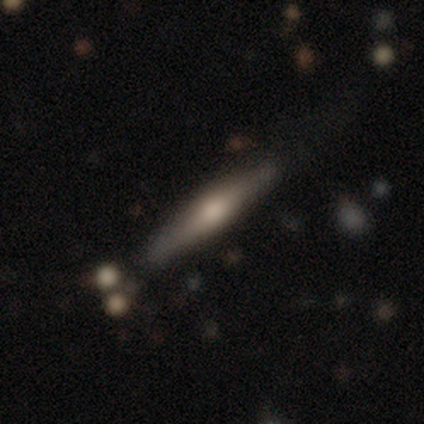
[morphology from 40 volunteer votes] This appears to be a featured or disk galaxy (50%) viewed edge-on (100%) with a rounded central bulge (95%). Merging: none (76%).